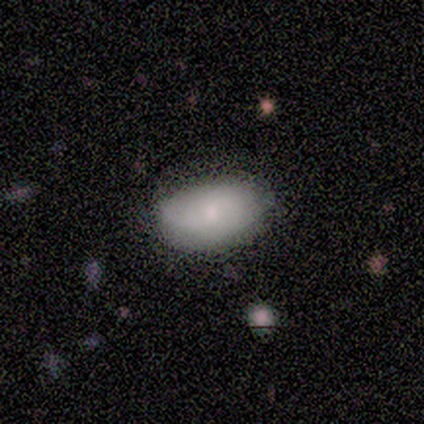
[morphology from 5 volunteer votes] smooth_or_featured: smooth (p=0.80) [alt: featured or disk p=0.20]
how_rounded: in between (p=1.00)
merging: none (p=0.80) [alt: minor disturbance p=0.20]